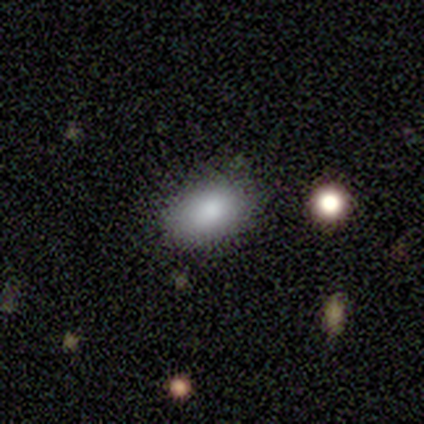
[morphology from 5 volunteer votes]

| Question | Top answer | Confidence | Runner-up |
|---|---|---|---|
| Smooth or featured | smooth | 80% | star or artifact (20%) |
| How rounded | in between | 100% | — |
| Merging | none | 100% | — |